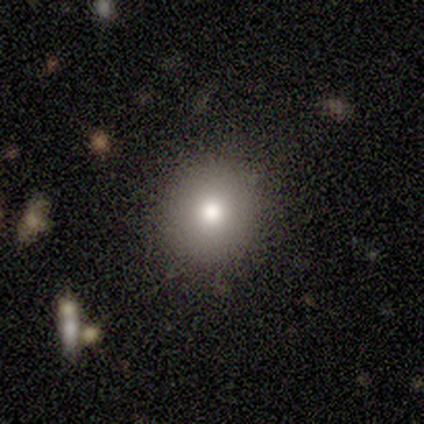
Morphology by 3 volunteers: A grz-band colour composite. It shows a smooth galaxy with no disk features (100%) that is round (100%). Merging: none (100%).